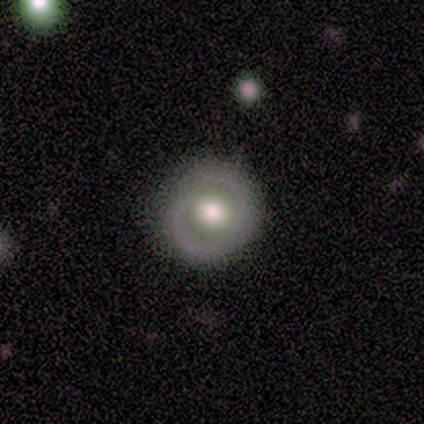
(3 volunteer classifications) A featured or disk galaxy (67%) with a weak bar (50%, tied with no), 1 (100%) tight (100%) spiral arms (50%, tied with no) and a moderate central bulge (100%).

Vote fractions:
- Smooth or featured? featured or disk: 67% / smooth: 33% / star or artifact: 0%
- Edge-on disk? no: 100% / yes: 0%
- Bar? weak: 50% (tied) / no: 50% (tied) / strong: 0%
- Spiral arms? yes: 50% (tied) / no: 50% (tied)
- Spiral winding? tight: 100% / medium: 0% / loose: 0%
- Spiral arm count? 1: 100% / 2: 0% / 3: 0% / 4: 0% / more than 4: 0% / can't tell: 0%
- Bulge size? moderate: 100% / dominant: 0% / large: 0% / small: 0% / none: 0%
- Merging? none: 100% / minor disturbance: 0% / major disturbance: 0% / merger: 0%